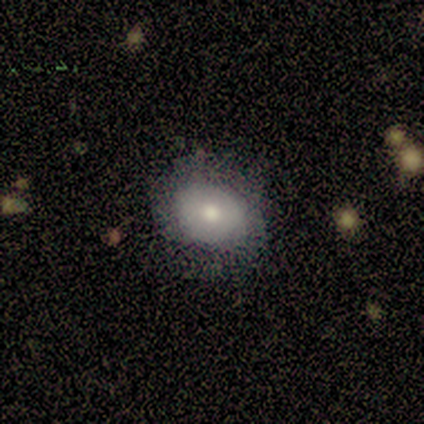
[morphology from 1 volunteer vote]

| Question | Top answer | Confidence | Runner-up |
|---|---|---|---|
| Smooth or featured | smooth | 100% | — |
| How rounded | in between | 100% | — |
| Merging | none | 100% | — |